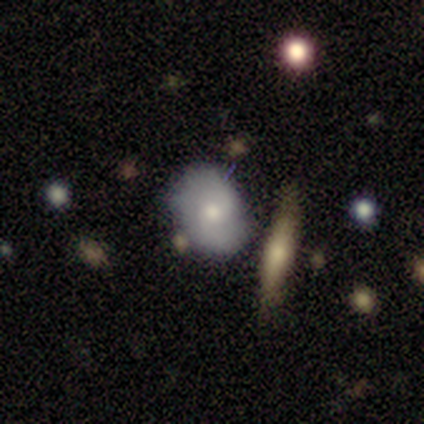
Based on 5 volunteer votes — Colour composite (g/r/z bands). It shows a smooth galaxy with no disk features (100%) that is in between round and cigar-shaped (80%). Merging: none (40%, tied with merger).